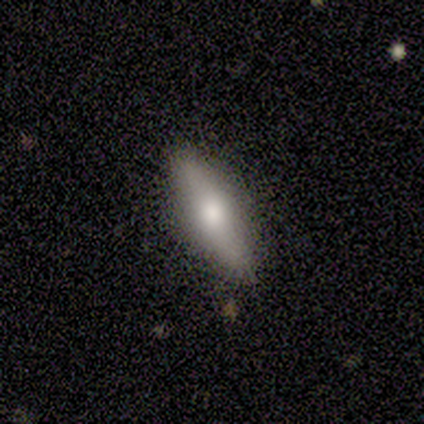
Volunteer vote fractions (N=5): Q: Smooth or featured?
A: smooth (60%); runner-up: featured or disk (40%)
Q: How rounded?
A: in between (100%)
Q: Merging?
A: none (100%)